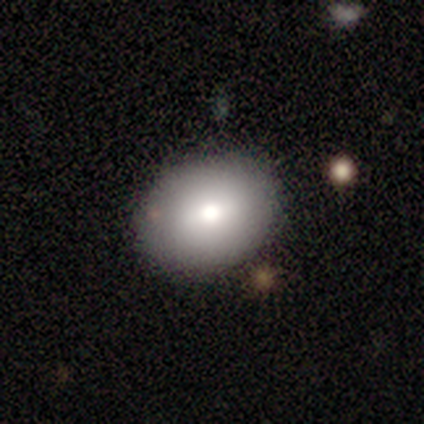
Overall: smooth (60%; featured or disk 20%). How rounded: in between (67%; round 33%). Merging: none (75%).